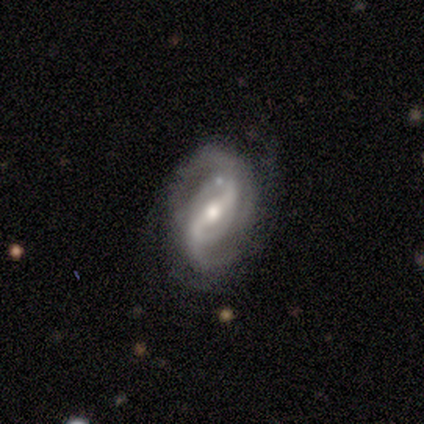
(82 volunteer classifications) This appears to be a featured or disk galaxy (87%) with a strong bar (44%), 2 (78%) medium (49%) spiral arms (97%) and a moderate central bulge (66%). Merging: none (62%).